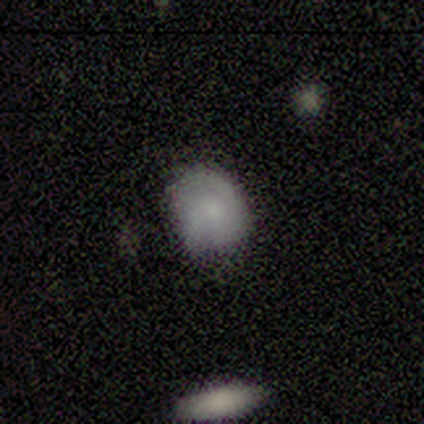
Smooth or featured?
  - smooth: 80% *
  - featured or disk: 20%
  - star or artifact: 0%
How rounded?
  - round: 100% *
  - in between: 0%
  - cigar-shaped: 0%
Merging?
  - none: 60% *
  - minor disturbance: 40%
  - major disturbance: 0%
  - merger: 0%